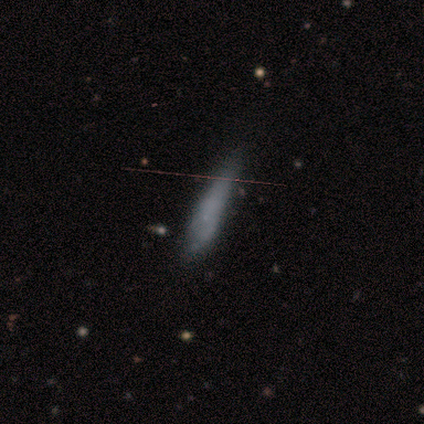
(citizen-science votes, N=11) Q: Smooth or featured?
A: smooth (55%); runner-up: featured or disk (45%)
Q: How rounded?
A: cigar-shaped (100%)
Q: Merging?
A: none (64%); runner-up: minor disturbance (27%)